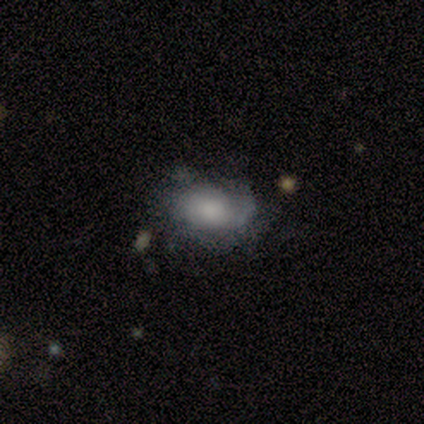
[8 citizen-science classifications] Smooth or featured? 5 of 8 (62%) said featured or disk. Edge-on disk? 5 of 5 (100%) said no. Bar? 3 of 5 (60%) said no. Spiral arms? 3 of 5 (60%) said no. Bulge size? 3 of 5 (60%) said moderate. Merging? 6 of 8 (75%) said none.